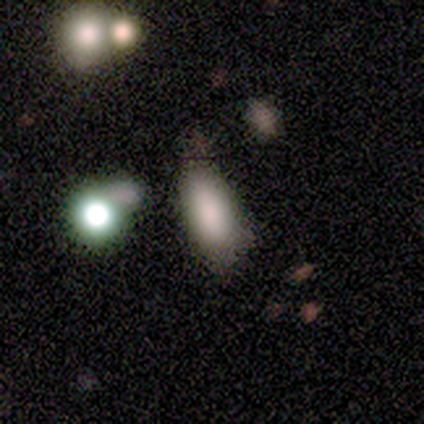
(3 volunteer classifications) A smooth galaxy with no disk features (100%) that is in between round and cigar-shaped (100%). Merging: none (67%).